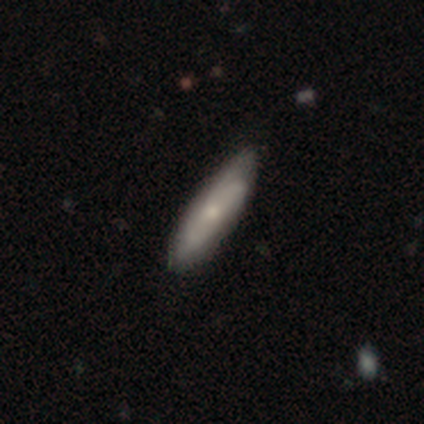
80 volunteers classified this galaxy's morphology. Q: Smooth or featured?
A: featured or disk (54%); runner-up: smooth (44%)
Q: Edge-on disk?
A: no (77%); runner-up: yes (23%)
Q: Bar?
A: no (82%); runner-up: weak (12%)
Q: Spiral arms?
A: yes (79%); runner-up: no (21%)
Q: Spiral winding?
A: medium (50%); runner-up: tight (35%)
Q: Spiral arm count?
A: can't tell (65%); runner-up: 2 (15%)
Q: Bulge size?
A: small (52%); runner-up: moderate (42%)
Q: Merging?
A: none (38%); runner-up: minor disturbance (17%)